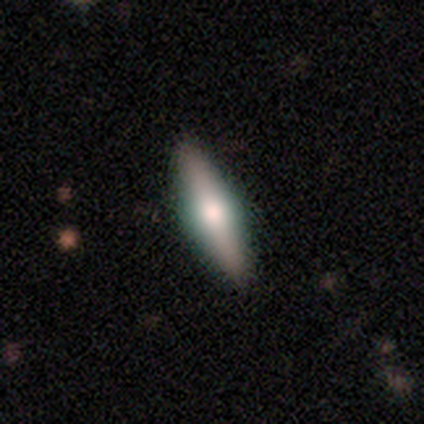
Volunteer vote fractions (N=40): Volunteers were most divided on "smooth or featured": featured or disk: 50%, smooth: 40%, star or artifact: 10%. More confident: edge-on disk — yes (95%); merging — none (92%); edge-on bulge — rounded (89%).